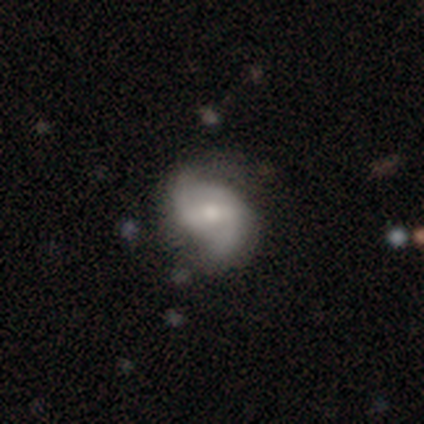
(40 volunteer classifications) smooth_or_featured: featured or disk (p=0.75) [alt: smooth p=0.23]
disk_edge_on: no (p=0.93) [alt: yes p=0.07]
bar: weak (p=0.54) [alt: strong p=0.36]
has_spiral_arms: yes (p=0.93) [alt: no p=0.07]
spiral_winding: medium (p=0.62) [alt: loose p=0.31]
spiral_arm_count: 2 (p=0.88) [alt: can't tell p=0.08]
bulge_size: moderate (p=0.54) [alt: small p=0.32]
merging: none (p=0.67) [alt: minor disturbance p=0.21]